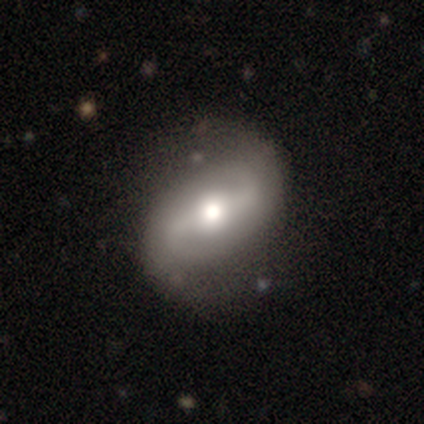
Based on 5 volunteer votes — A featured or disk galaxy (80%) with a weak bar (50%), 2 (100%) loose (75%) spiral arms (100%) and a moderate central bulge (50%, tied with small).

Vote fractions:
- Smooth or featured? featured or disk: 80% / smooth: 20% / star or artifact: 0%
- Edge-on disk? no: 100% / yes: 0%
- Bar? weak: 50% / strong: 25% / no: 25%
- Spiral arms? yes: 100% / no: 0%
- Spiral winding? loose: 75% / medium: 25% / tight: 0%
- Spiral arm count? 2: 100% / 1: 0% / 3: 0% / 4: 0% / more than 4: 0% / can't tell: 0%
- Bulge size? moderate: 50% (tied) / small: 50% (tied) / dominant: 0% / large: 0% / none: 0%
- Merging? none: 100% / minor disturbance: 0% / major disturbance: 0% / merger: 0%